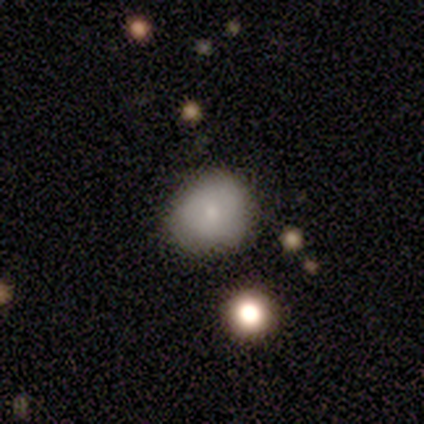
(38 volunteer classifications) smooth 68%, star or artifact 21%, featured or disk 11%. Down the decision tree: how rounded — round (69%); merging — none (67%).